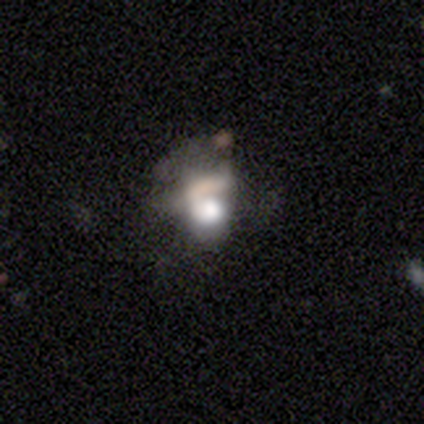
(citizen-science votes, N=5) Smooth or featured?
  - smooth: 60% *
  - featured or disk: 40%
  - star or artifact: 0%
How rounded?
  - in between: 100% *
  - round: 0%
  - cigar-shaped: 0%
Merging?
  - major disturbance: 60% *
  - minor disturbance: 20%
  - merger: 20%
  - none: 0%